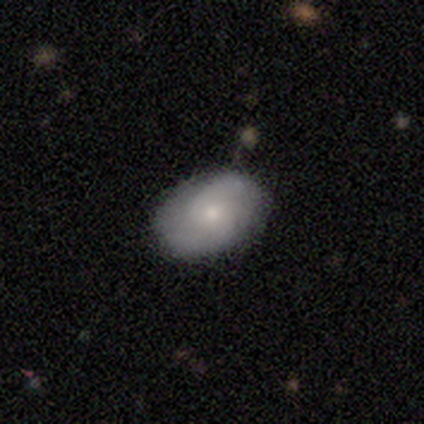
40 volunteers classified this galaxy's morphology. This appears to be a featured or disk galaxy (55%) with no bar (77%), 2 (81%) medium (62%) spiral arms (73%) and a small central bulge (64%). Merging: none (85%).